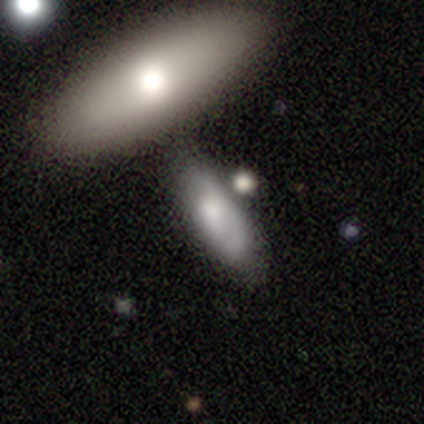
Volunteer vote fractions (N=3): Smooth or featured: smooth — 67% (featured or disk — 33%)
How rounded: in between — 100%
Merging: none — 33% (tied with minor disturbance — 33%; major disturbance — 33%)